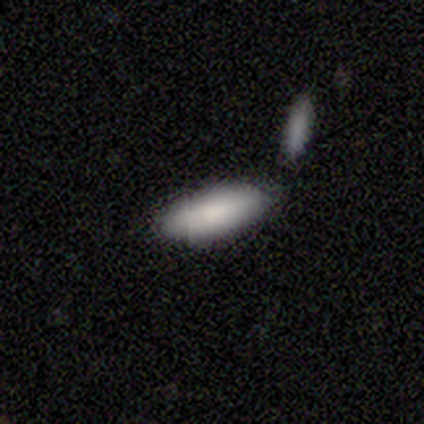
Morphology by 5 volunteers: Overall: smooth (100%). How rounded: in between (80%). Merging: none (80%).